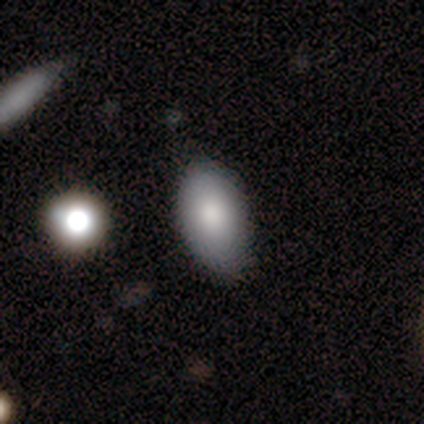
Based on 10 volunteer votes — smooth 90%, star or artifact 10%, featured or disk 0%. Down the decision tree: how rounded — in between (100%); merging — none (100%).